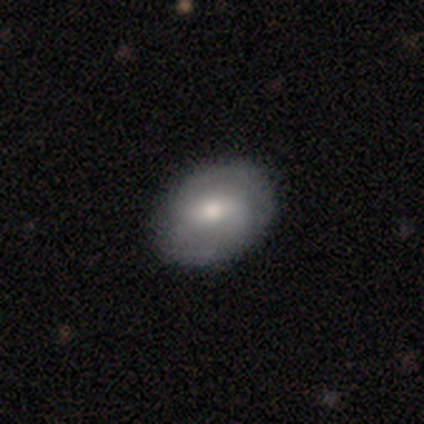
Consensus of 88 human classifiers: A featured or disk galaxy (61%) with a weak bar (54%), 2 (71%) medium (47%) spiral arms (76%) and a moderate central bulge (54%). Merging: none (88%).